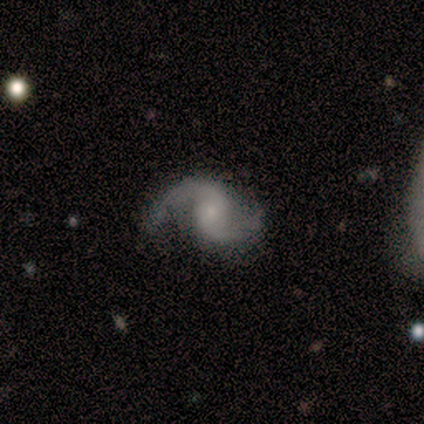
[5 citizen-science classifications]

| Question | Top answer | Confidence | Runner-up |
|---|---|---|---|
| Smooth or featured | featured or disk | 100% | — |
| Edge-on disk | no | 100% | — |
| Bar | no | 60% | weak (40%) |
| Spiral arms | yes | 100% | — |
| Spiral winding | loose | 60% | medium (40%) |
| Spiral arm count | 2 | 100% | — |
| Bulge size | small | 60% | moderate (20%) |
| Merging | none | 80% | minor disturbance (20%) |